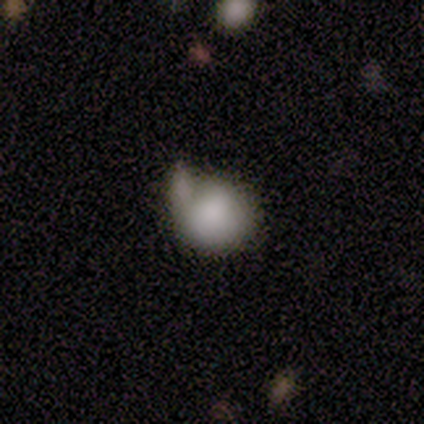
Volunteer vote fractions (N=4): Q: Smooth or featured?
A: smooth (100%)
Q: How rounded?
A: round (75%); runner-up: in between (25%)
Q: Merging?
A: minor disturbance (50%); runner-up: none (25%)